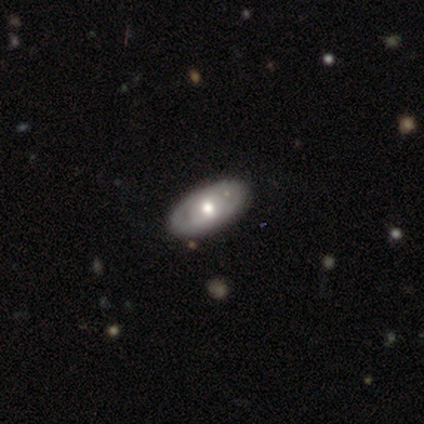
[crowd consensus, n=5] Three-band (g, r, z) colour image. It shows a smooth galaxy with no disk features (40%, tied with featured or disk) that is in between round and cigar-shaped (100%). Merging: none (100%).